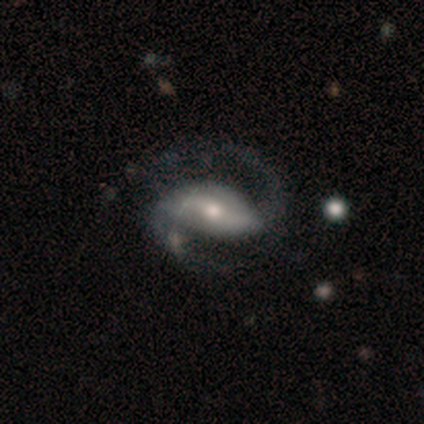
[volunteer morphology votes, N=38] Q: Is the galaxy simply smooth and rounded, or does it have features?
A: featured or disk — 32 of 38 (84%).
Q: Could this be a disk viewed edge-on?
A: no — 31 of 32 (97%).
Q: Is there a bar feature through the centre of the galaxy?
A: weak — 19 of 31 (61%).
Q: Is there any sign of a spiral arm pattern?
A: yes — 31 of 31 (100%).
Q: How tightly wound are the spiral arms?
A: medium — 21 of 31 (68%).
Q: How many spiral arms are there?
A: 2 — 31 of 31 (100%).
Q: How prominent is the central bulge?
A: moderate — 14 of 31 (45%).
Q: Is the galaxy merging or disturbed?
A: none — 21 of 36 (58%).